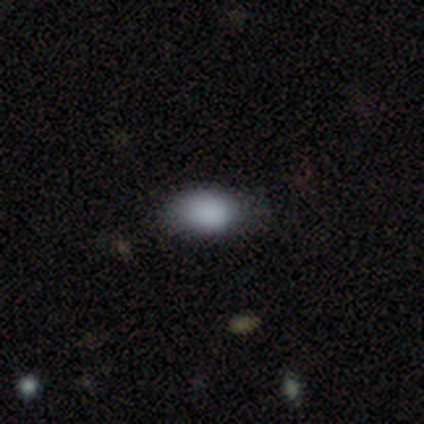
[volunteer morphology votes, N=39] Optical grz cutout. It shows a smooth galaxy with no disk features (79%) that is in between round and cigar-shaped (74%). Merging: none (65%).